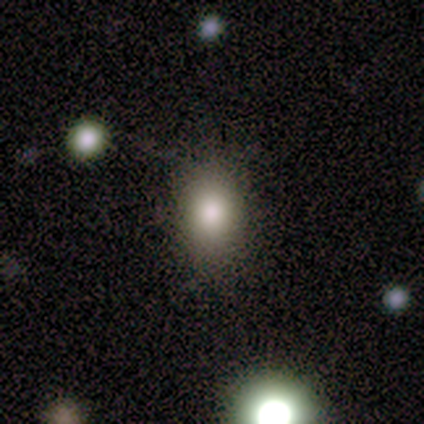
This is likely a smooth galaxy (75%). How rounded: clearly in between (100%). Merging: likely none (67%).